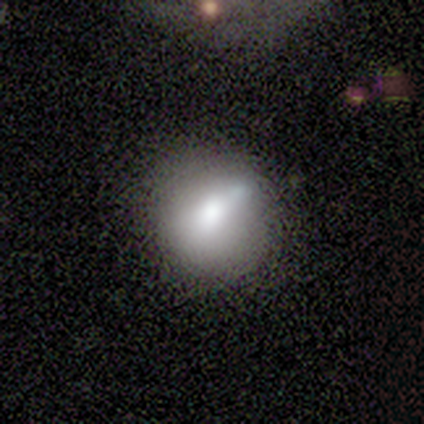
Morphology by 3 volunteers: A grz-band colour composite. It shows a smooth galaxy with no disk features (67%) that is round (100%). Merging: none (100%).